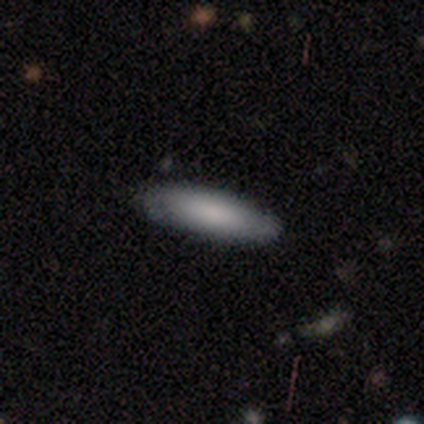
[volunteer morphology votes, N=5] Q: Smooth or featured?
A: smooth (100%)
Q: How rounded?
A: cigar-shaped (80%); runner-up: in between (20%)
Q: Merging?
A: none (80%); runner-up: minor disturbance (20%)